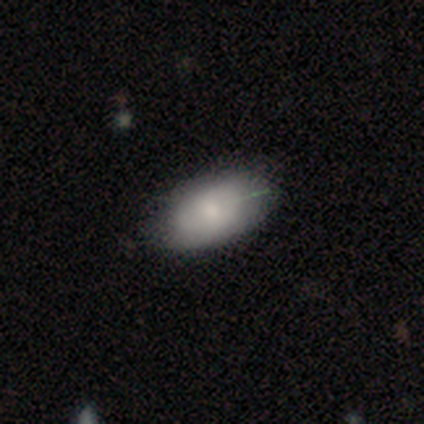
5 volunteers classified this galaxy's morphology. A smooth galaxy with no disk features (60%) that is in between round and cigar-shaped (100%). Merging: none (75%).